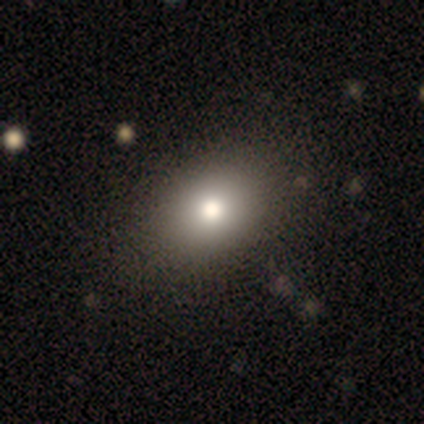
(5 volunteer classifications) Smooth or featured? 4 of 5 (80%) said smooth. How rounded? 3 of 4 (75%) said in between. Merging? 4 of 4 (100%) said none.